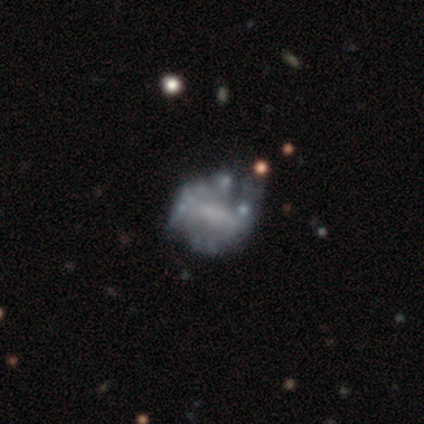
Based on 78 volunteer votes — Morphology: type=featured or disk (82%); edge-on=no (100%); bar=no (48%); spiral arms=no (73%); bulge=none (62%); merging=none (27%).